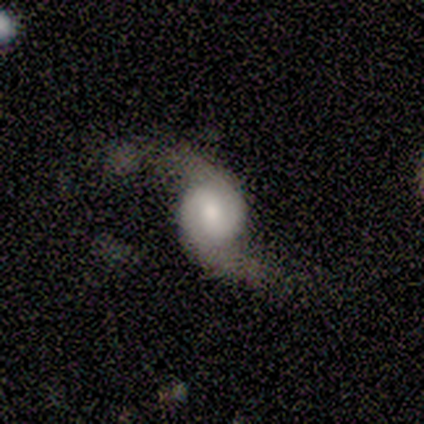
smooth_or_featured: featured or disk (p=1.00)
disk_edge_on: no (p=1.00)
bar: weak (p=0.75) [alt: no p=0.25]
has_spiral_arms: yes (p=1.00)
spiral_winding: medium (p=0.75) [alt: loose p=0.25]
spiral_arm_count: 2 (p=0.75) [alt: can't tell p=0.25]
bulge_size: moderate (p=0.50) [alt: large p=0.25]
merging: none (p=0.75) [alt: major disturbance p=0.25]